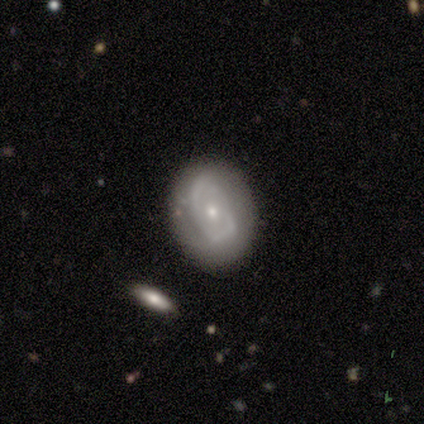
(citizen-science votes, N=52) Smooth or featured? 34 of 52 (65%) said featured or disk. Edge-on disk? 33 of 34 (97%) said no. Bar? 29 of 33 (88%) said no. Spiral arms? 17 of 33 (52%) said yes. Spiral winding? 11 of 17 (65%) said tight. Spiral arm count? 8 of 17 (47%) said 2. Bulge size? 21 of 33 (64%) said small. Merging? 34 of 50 (68%) said none.